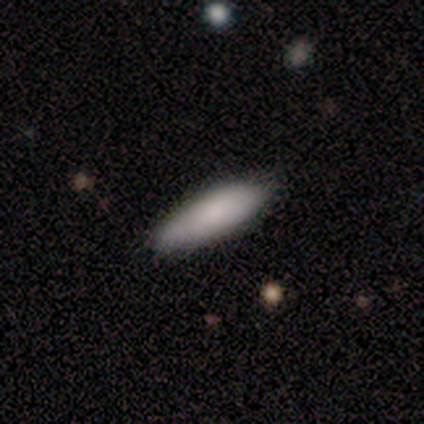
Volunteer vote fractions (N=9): Morphology: type=smooth (100%); roundness=in between (67%); merging=none (89%).